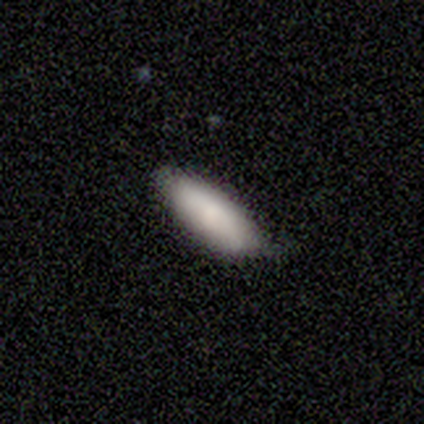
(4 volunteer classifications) This is likely a smooth galaxy (75%). How rounded: clearly in between (100%). Merging: clearly none (100%).